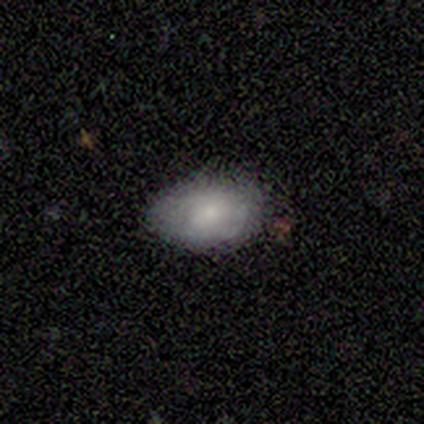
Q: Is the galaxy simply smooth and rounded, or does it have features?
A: featured or disk — 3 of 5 (60%).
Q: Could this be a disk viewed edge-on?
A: no — 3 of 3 (100%).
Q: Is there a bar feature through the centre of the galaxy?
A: no — 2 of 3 (67%).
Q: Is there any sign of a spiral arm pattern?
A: no — 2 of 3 (67%).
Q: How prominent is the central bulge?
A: small — 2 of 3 (67%).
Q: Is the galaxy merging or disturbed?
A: minor disturbance — 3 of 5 (60%).